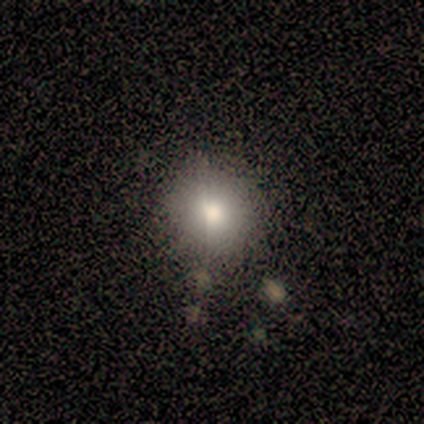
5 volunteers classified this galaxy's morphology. Smooth or featured: smooth — 60% (star or artifact — 40%)
How rounded: round — 100%
Merging: none — 100%